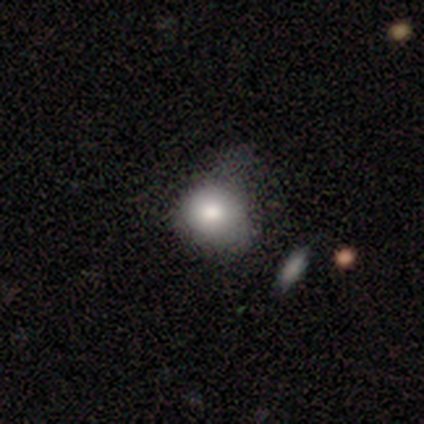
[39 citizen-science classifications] This appears to be a smooth galaxy with no disk features (77%) that is round (90%). Merging: none (26%, tied with minor disturbance).